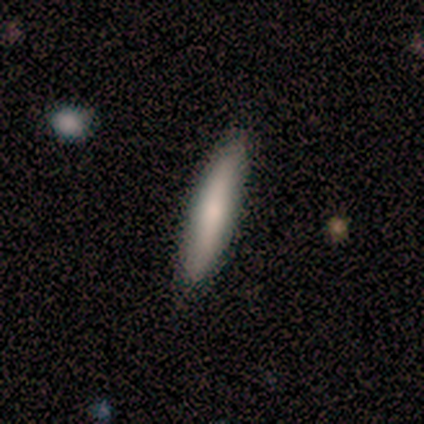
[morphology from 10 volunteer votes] Volunteers were most divided on "smooth or featured": smooth: 80%, featured or disk: 20%, star or artifact: 0%. More confident: how rounded — cigar-shaped (100%); merging — none (100%).